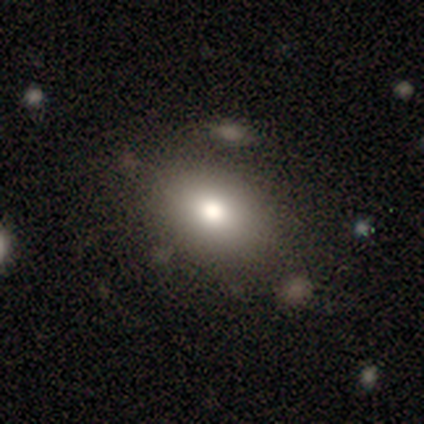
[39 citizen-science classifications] Smooth or featured: smooth — 95% (featured or disk — 5%)
How rounded: in between — 81% (round — 19%)
Merging: none — 62% (merger — 8%)